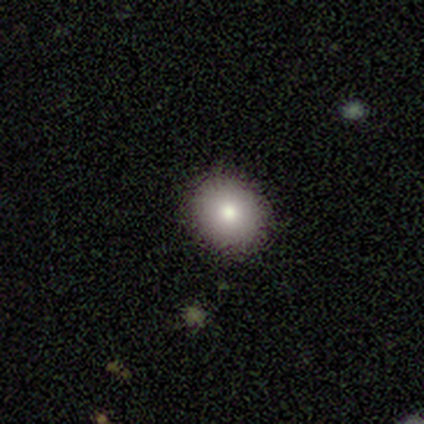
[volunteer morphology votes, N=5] Smooth or featured? 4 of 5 (80%) said smooth. How rounded? 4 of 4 (100%) said round. Merging? 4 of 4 (100%) said none.